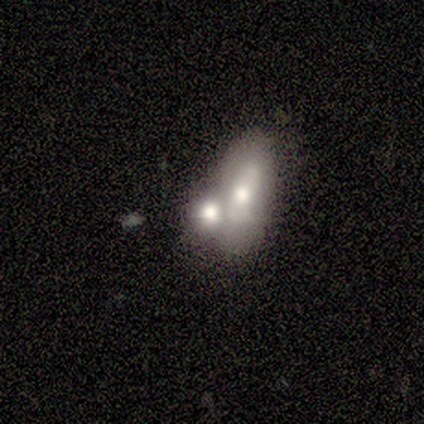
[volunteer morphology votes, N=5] type=smooth (80%); roundness=in between (75%); merging=merger (100%).